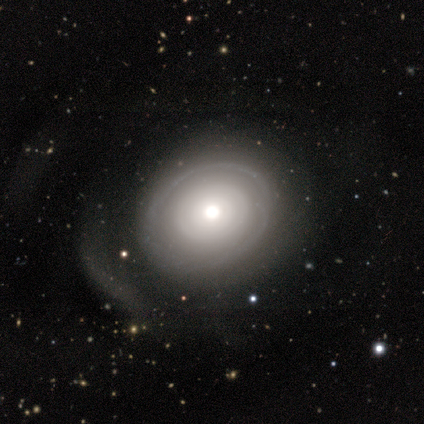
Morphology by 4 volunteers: Smooth or featured?
  - featured or disk: 75% *
  - smooth: 25%
  - star or artifact: 0%
Edge-on disk?
  - no: 100% *
  - yes: 0%
Bar?
  - no: 100% *
  - strong: 0%
  - weak: 0%
Spiral arms?
  - no: 100% *
  - yes: 0%
Bulge size?
  - moderate: 100% *
  - dominant: 0%
  - large: 0%
  - small: 0%
  - none: 0%
Merging?
  - none: 50% * (tied)
  - major disturbance: 50% * (tied)
  - minor disturbance: 0%
  - merger: 0%